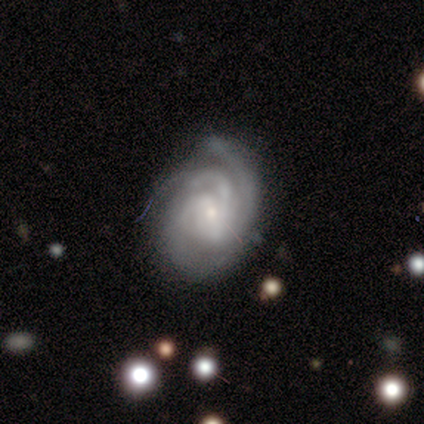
This appears to be a featured or disk galaxy (97%) with no bar (43%), 3 (70%) tight (54%) spiral arms (100%) and a small central bulge (68%). Merging: none (61%).